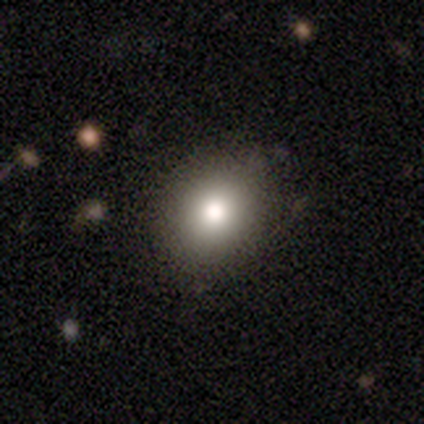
Overall: smooth (80%). How rounded: round (75%). Merging: none (100%).